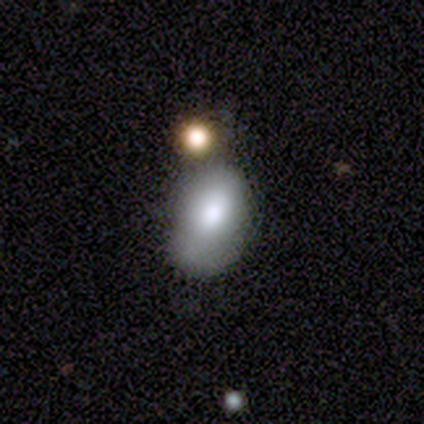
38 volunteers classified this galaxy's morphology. A smooth galaxy with no disk features (66%) that is in between round and cigar-shaped (88%). Merging: none (39%).